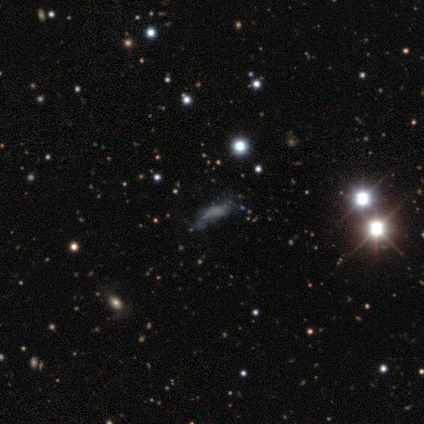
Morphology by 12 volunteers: This appears to be a featured or disk galaxy (50%) with no bar (80%), no spiral arms (80%) and no central bulge (80%). Merging: none (30%, tied with minor disturbance and major disturbance).